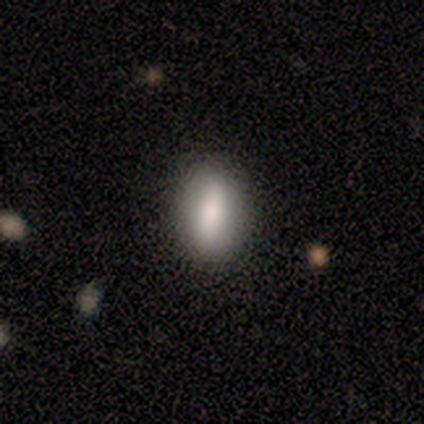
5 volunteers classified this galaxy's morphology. This is likely a featured or disk galaxy (60%). It is clearly not viewed edge-on (100%). Bar: marginally strong (33%, tied with weak and no). Spiral arm pattern: clearly no (100%). Central bulge: marginally large (33%, tied with moderate and small). Merging: clearly none (100%).